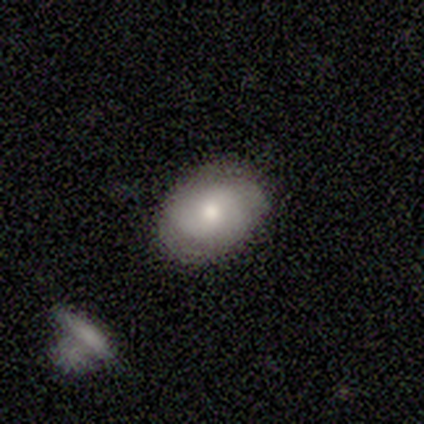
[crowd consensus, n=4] Smooth or featured? smooth (50%, tied with featured or disk)
How rounded? in between (100%)
Merging? none (100%)